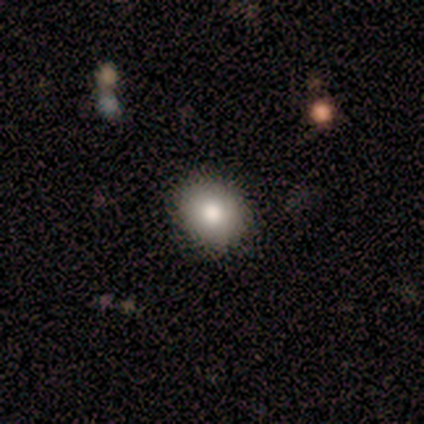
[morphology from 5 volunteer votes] A smooth galaxy with no disk features (100%) that is round (80%).

Vote fractions:
- Smooth or featured? smooth: 100% / featured or disk: 0% / star or artifact: 0%
- How rounded? round: 80% / in between: 20% / cigar-shaped: 0%
- Merging? none: 100% / minor disturbance: 0% / major disturbance: 0% / merger: 0%